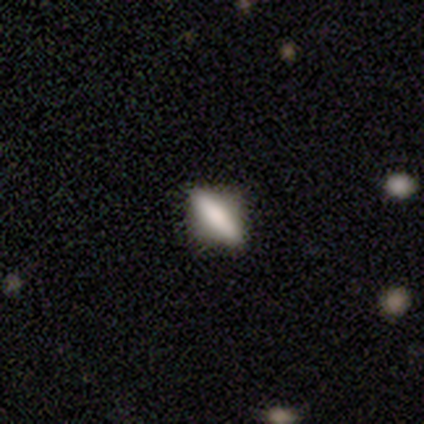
smooth 60%, featured or disk 40%, star or artifact 0%. Down the decision tree: how rounded — cigar-shaped (67%); merging — none (40%, tied with minor disturbance).